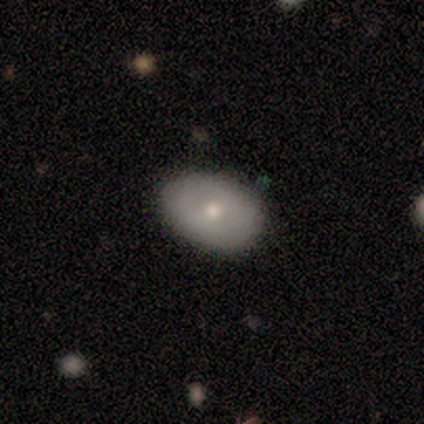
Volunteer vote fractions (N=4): smooth-or-featured: smooth: 75% | star or artifact: 25% | featured or disk: 0%
  how-rounded: in between: 100% | round: 0% | cigar-shaped: 0%
  merging: none: 100% | minor disturbance: 0% | major disturbance: 0% | merger: 0%